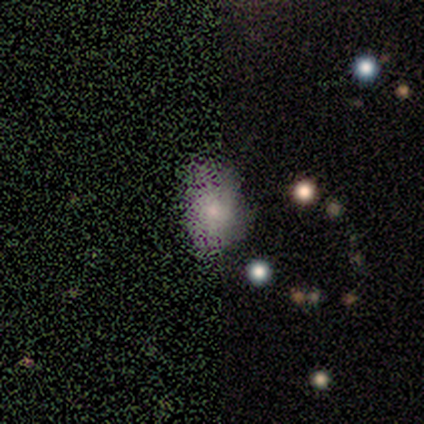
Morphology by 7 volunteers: type=star or artifact (57%).